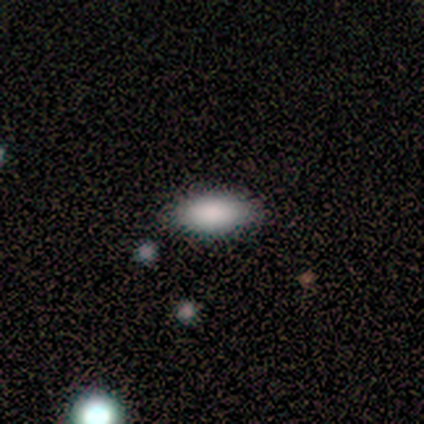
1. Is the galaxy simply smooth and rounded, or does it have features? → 100% smooth, 0% featured or disk, 0% star or artifact.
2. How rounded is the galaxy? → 100% in between, 0% round, 0% cigar-shaped.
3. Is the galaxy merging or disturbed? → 100% none, 0% minor disturbance, 0% major disturbance, 0% merger.